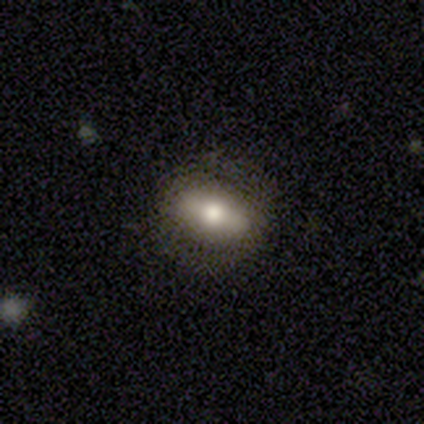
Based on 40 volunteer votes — Smooth or featured? smooth (50%)
How rounded? in between (90%)
Merging? none (90%)